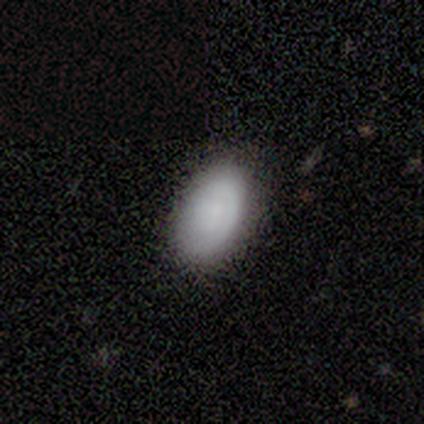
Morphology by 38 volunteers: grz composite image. It shows a smooth galaxy with no disk features (84%) that is in between round and cigar-shaped (100%). Merging: none (89%).